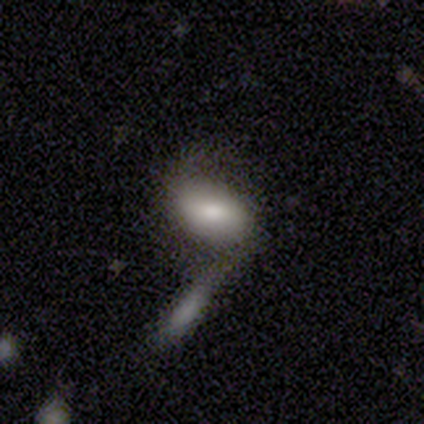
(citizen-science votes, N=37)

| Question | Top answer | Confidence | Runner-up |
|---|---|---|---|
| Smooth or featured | smooth | 59% | featured or disk (32%) |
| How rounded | in between | 95% | round (5%) |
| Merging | none | 41% | merger (38%) |